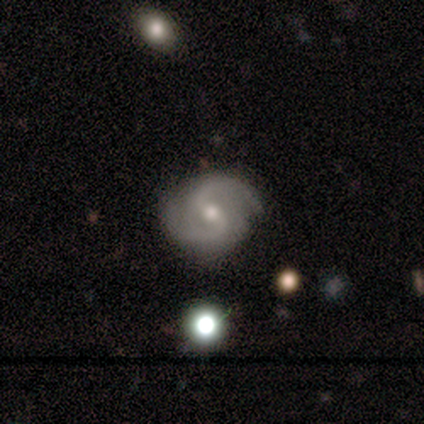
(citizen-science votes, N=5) Smooth or featured? featured or disk (60%)
Edge-on disk? no (100%)
Bar? strong (67%)
Spiral arms? yes (100%)
Spiral winding? tight (67%)
Spiral arm count? 2 (67%)
Bulge size? small (67%)
Merging? none (75%)